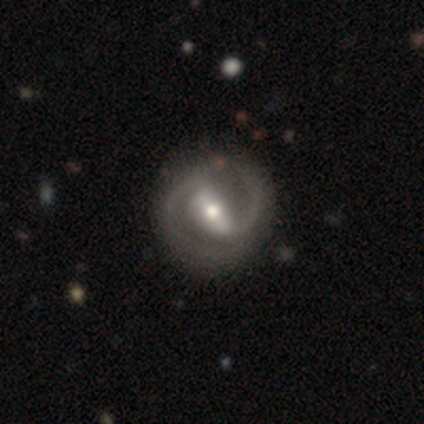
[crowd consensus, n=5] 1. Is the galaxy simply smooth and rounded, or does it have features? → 100% featured or disk, 0% smooth, 0% star or artifact.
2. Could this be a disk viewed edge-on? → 100% no, 0% yes.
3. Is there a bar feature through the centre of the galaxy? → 60% strong, 20% weak, 20% no.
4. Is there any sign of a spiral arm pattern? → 80% yes, 20% no.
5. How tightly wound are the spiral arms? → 50% tight (tied), 50% medium (tied), 0% loose.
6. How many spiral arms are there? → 100% 2, 0% 1, 0% 3, 0% 4, 0% more than 4, 0% can't tell.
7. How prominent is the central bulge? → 80% moderate, 20% small, 0% dominant, 0% large, 0% none.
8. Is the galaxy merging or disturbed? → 80% none, 20% major disturbance, 0% minor disturbance, 0% merger.